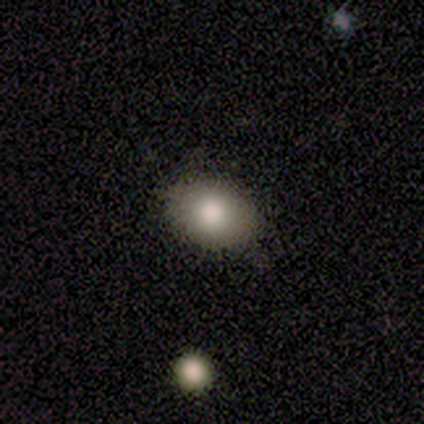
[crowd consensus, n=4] Overall: smooth (75%). How rounded: round (67%; in between 33%). Merging: none (100%).